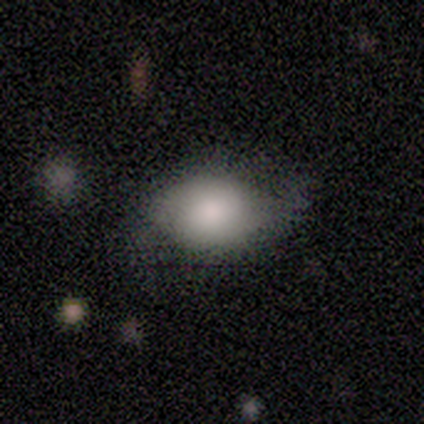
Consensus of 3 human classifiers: A smooth galaxy with no disk features (100%) that is in between round and cigar-shaped (100%).

Vote fractions:
- Smooth or featured? smooth: 100% / featured or disk: 0% / star or artifact: 0%
- How rounded? in between: 100% / round: 0% / cigar-shaped: 0%
- Merging? minor disturbance: 67% / none: 33% / major disturbance: 0% / merger: 0%